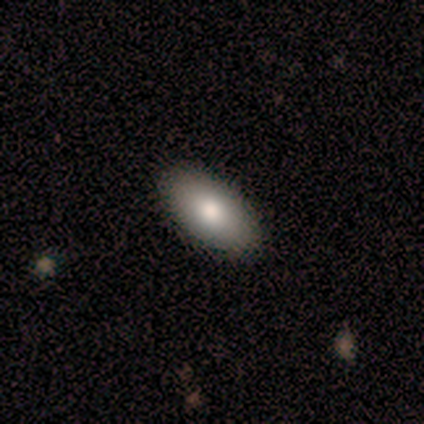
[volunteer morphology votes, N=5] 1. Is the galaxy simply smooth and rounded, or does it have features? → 100% smooth, 0% featured or disk, 0% star or artifact.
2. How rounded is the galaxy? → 80% in between, 20% cigar-shaped, 0% round.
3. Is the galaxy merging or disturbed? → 60% none, 40% minor disturbance, 0% major disturbance, 0% merger.